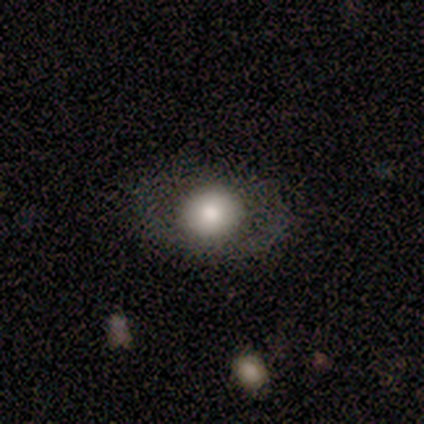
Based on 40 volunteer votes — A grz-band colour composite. It shows a smooth galaxy with no disk features (62%) that is round (64%). Merging: none (94%).